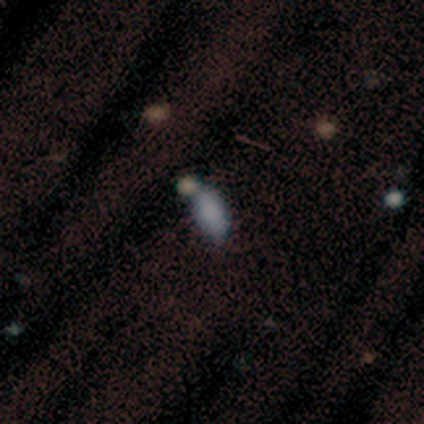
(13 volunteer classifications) smooth 77%, star or artifact 23%, featured or disk 0%. Down the decision tree: how rounded — in between (90%); merging — none (40%, tied with merger).